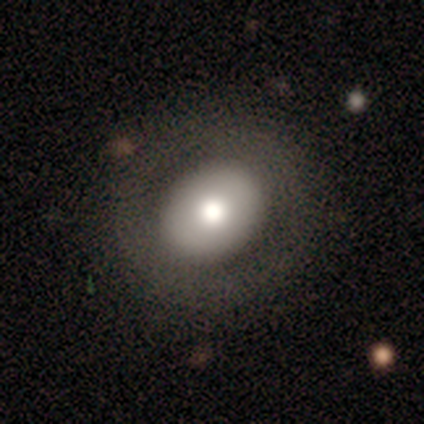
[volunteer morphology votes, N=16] A smooth galaxy with no disk features (56%) that is in between round and cigar-shaped (78%).

Vote fractions:
- Smooth or featured? smooth: 56% / featured or disk: 25% / star or artifact: 19%
- How rounded? in between: 78% / round: 22% / cigar-shaped: 0%
- Merging? none: 85% / minor disturbance: 8% / major disturbance: 8% / merger: 0%